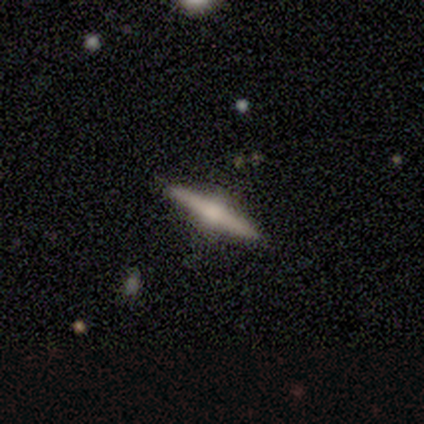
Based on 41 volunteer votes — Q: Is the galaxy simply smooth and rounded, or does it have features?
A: featured or disk — 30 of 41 (73%).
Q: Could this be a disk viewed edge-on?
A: yes — 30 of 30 (100%).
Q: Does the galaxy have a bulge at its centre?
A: rounded — 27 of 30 (90%).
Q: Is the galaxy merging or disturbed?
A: none — 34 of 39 (87%).